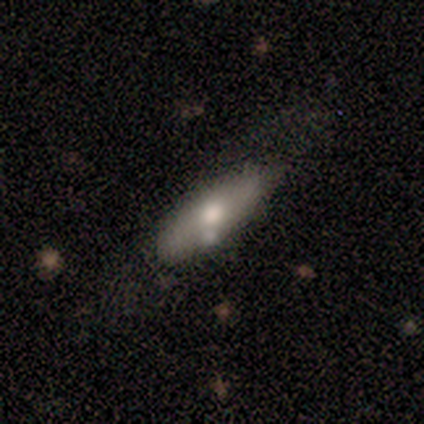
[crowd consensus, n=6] smooth_or_featured: smooth (p=1.00)
how_rounded: in between (p=0.50) [tied with: cigar-shaped p=0.50]
merging: none (p=0.67) [alt: minor disturbance p=0.17]